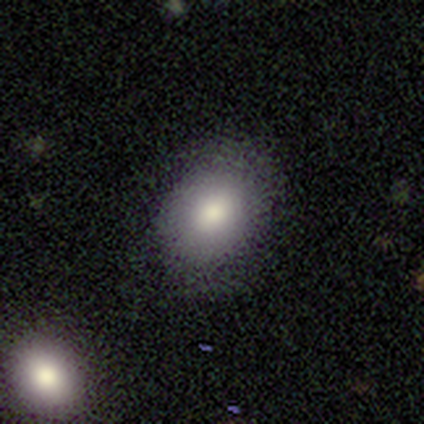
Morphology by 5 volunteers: Q: Smooth or featured?
A: smooth (100%)
Q: How rounded?
A: in between (80%); runner-up: round (20%)
Q: Merging?
A: none (40%); tied with: minor disturbance (40%)